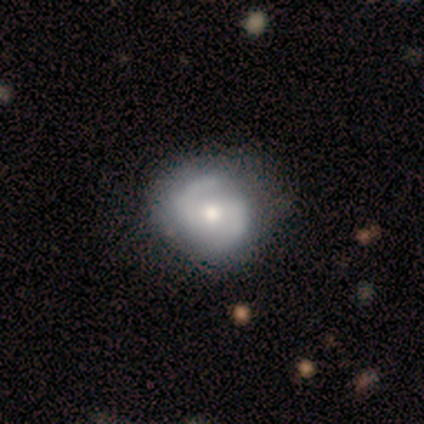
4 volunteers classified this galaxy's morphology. A featured or disk galaxy (75%) with a weak bar (67%), 2 (100%) medium (67%) spiral arms (100%) and a moderate central bulge (67%).

Vote fractions:
- Smooth or featured? featured or disk: 75% / smooth: 25% / star or artifact: 0%
- Edge-on disk? no: 100% / yes: 0%
- Bar? weak: 67% / strong: 33% / no: 0%
- Spiral arms? yes: 100% / no: 0%
- Spiral winding? medium: 67% / loose: 33% / tight: 0%
- Spiral arm count? 2: 100% / 1: 0% / 3: 0% / 4: 0% / more than 4: 0% / can't tell: 0%
- Bulge size? moderate: 67% / large: 33% / dominant: 0% / small: 0% / none: 0%
- Merging? none: 100% / minor disturbance: 0% / major disturbance: 0% / merger: 0%